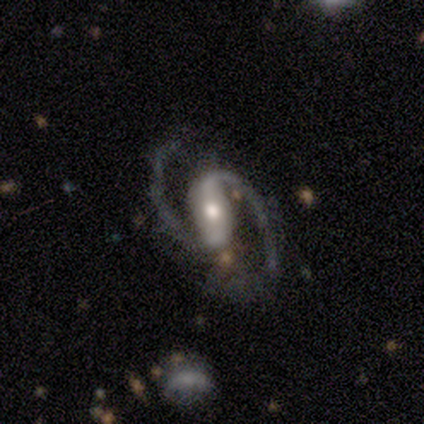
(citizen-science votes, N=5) smooth-or-featured: featured or disk: 100% | smooth: 0% | star or artifact: 0%
  disk-edge-on: no: 80% | yes: 20%
    bar: strong: 50% (tied) | weak: 50% (tied) | no: 0%
    has-spiral-arms: yes: 100% | no: 0%
      spiral-winding: medium: 75% | loose: 25% | tight: 0%
      spiral-arm-count: 2: 100% | 1: 0% | 3: 0% | 4: 0% | more than 4: 0% | can't tell: 0%
    bulge-size: moderate: 75% | large: 25% | dominant: 0% | small: 0% | none: 0%
  merging: none: 80% | major disturbance: 20% | minor disturbance: 0% | merger: 0%